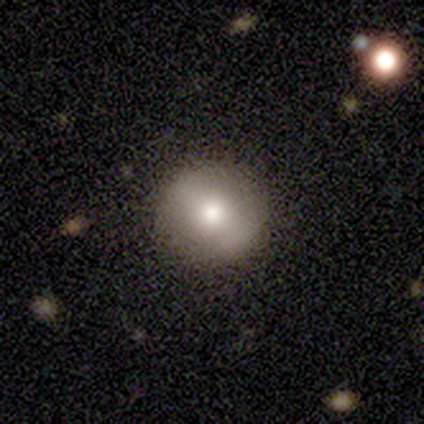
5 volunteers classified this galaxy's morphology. smooth-or-featured: smooth: 60% | featured or disk: 40% | star or artifact: 0%
  how-rounded: round: 100% | in between: 0% | cigar-shaped: 0%
  merging: none: 80% | minor disturbance: 20% | major disturbance: 0% | merger: 0%